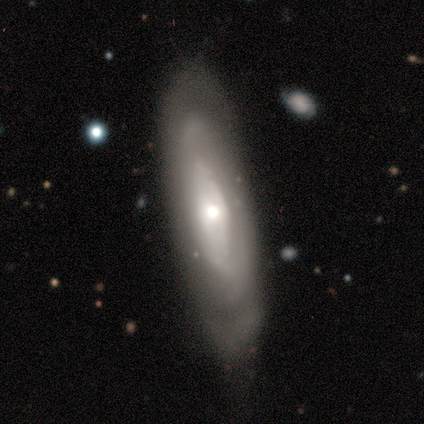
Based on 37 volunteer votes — Smooth or featured? 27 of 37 (73%) said featured or disk. Edge-on disk? 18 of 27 (67%) said no. Bar? 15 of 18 (83%) said no. Spiral arms? 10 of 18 (56%) said yes. Spiral winding? 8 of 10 (80%) said tight. Spiral arm count? 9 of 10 (90%) said can't tell. Bulge size? 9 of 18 (50%) said moderate. Merging? 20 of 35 (57%) said none.